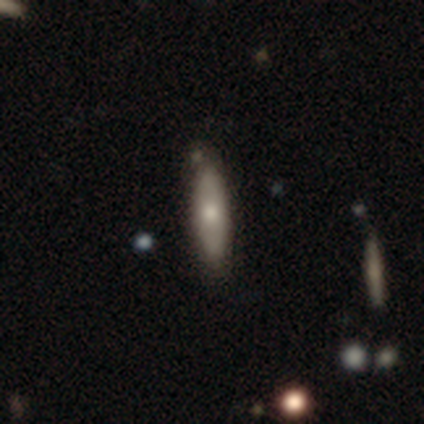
Smooth or featured: smooth — 60% (featured or disk — 40%)
How rounded: cigar-shaped — 67% (round — 33%)
Merging: none — 50% (minor disturbance — 20%)